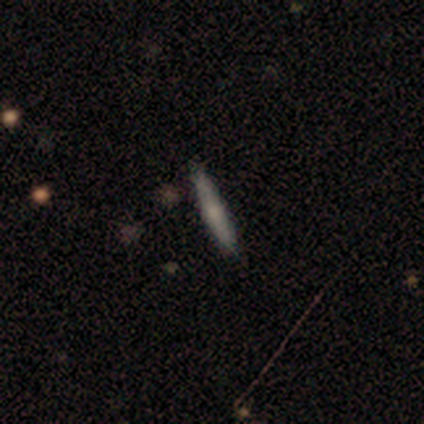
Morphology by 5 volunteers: A smooth galaxy with no disk features (60%) that is cigar-shaped (100%).

Vote fractions:
- Smooth or featured? smooth: 60% / star or artifact: 40% / featured or disk: 0%
- How rounded? cigar-shaped: 100% / round: 0% / in between: 0%
- Merging? none: 100% / minor disturbance: 0% / major disturbance: 0% / merger: 0%